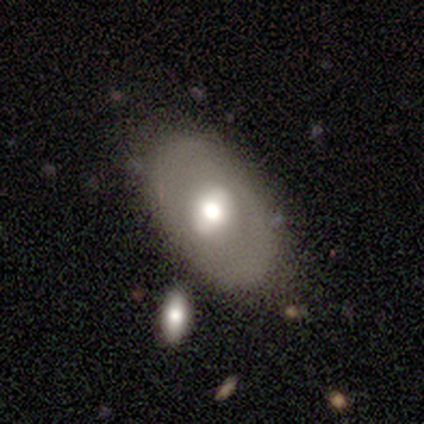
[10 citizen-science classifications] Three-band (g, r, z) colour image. It shows a smooth galaxy with no disk features (50%) that is in between round and cigar-shaped (100%). Merging: none (100%).